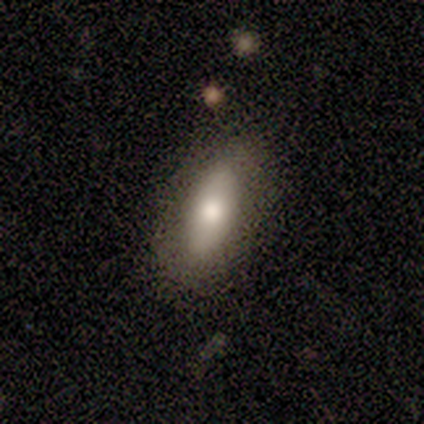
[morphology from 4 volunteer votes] This appears to be a smooth galaxy with no disk features (75%) that is in between round and cigar-shaped (67%). Merging: none (100%).